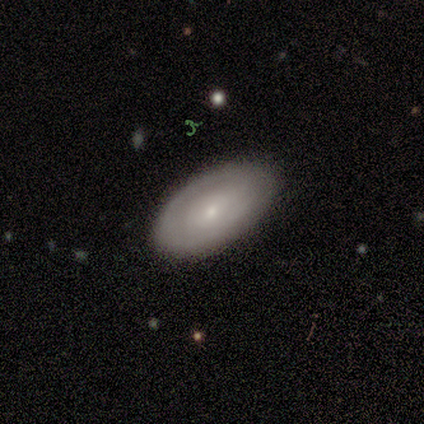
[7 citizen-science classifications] A featured or disk galaxy (57%) with a weak bar (50%), tight (100%) spiral arms (75%) and a moderate central bulge (50%, tied with small). Merging: none (100%).